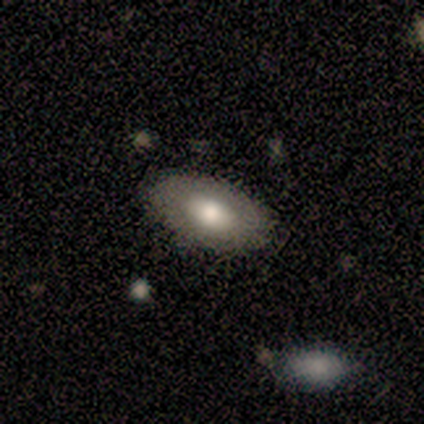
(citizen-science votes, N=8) Smooth or featured? smooth (62%)
How rounded? in between (100%)
Merging? none (100%)